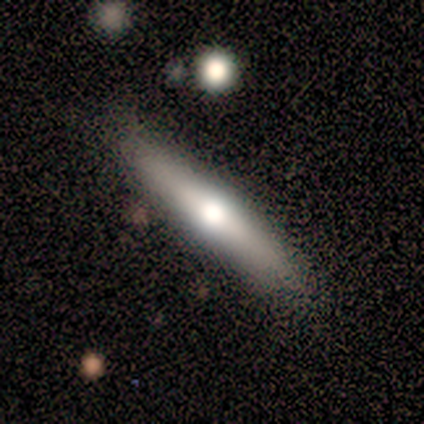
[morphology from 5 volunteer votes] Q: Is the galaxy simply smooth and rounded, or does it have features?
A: smooth — 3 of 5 (60%).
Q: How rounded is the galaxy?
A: cigar-shaped — 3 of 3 (100%).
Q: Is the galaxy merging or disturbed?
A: none — 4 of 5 (80%).